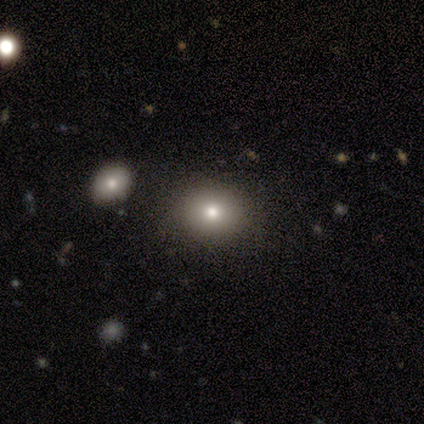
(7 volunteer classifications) Smooth or featured?
  - smooth: 57% *
  - star or artifact: 29%
  - featured or disk: 14%
How rounded?
  - round: 75% *
  - in between: 25%
  - cigar-shaped: 0%
Merging?
  - none: 80% *
  - minor disturbance: 20%
  - major disturbance: 0%
  - merger: 0%